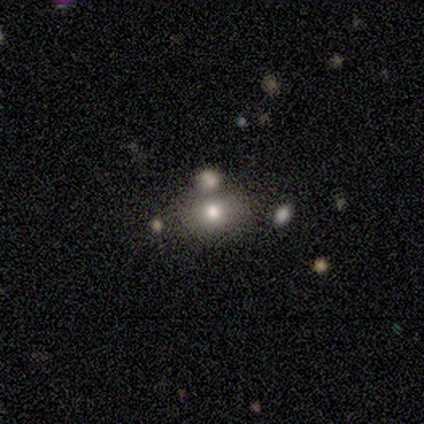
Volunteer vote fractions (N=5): This appears to be a smooth galaxy with no disk features (80%) that is round (75%). Merging: none (80%).